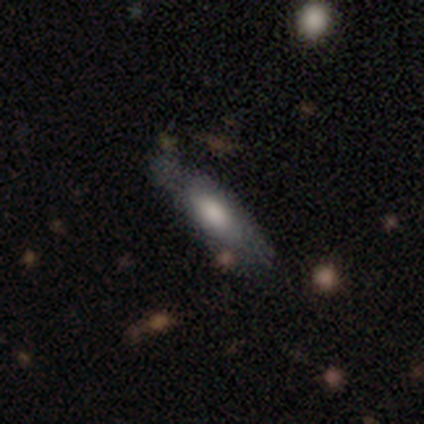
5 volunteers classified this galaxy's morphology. Smooth or featured?
  - smooth: 40% * (tied)
  - featured or disk: 40% * (tied)
  - star or artifact: 20%
How rounded?
  - in between: 100% *
  - round: 0%
  - cigar-shaped: 0%
Merging?
  - none: 75% *
  - minor disturbance: 25%
  - major disturbance: 0%
  - merger: 0%